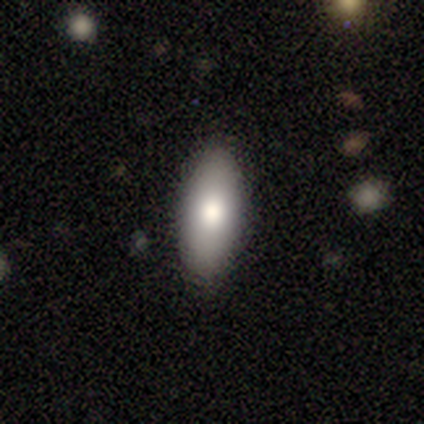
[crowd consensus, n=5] Smooth or featured? smooth (80%)
How rounded? in between (75%)
Merging? none (100%)